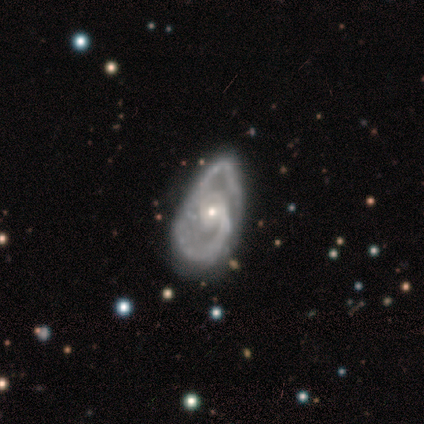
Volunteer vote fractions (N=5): This is clearly a featured or disk galaxy (80%). It is likely not viewed edge-on (75%). Bar: clearly no (100%). Spiral arm pattern: clearly yes (100%). Spiral arm count: likely 2 (67%). Spiral winding: clearly medium (100%). Central bulge: likely small (67%). Merging: likely minor disturbance (75%).